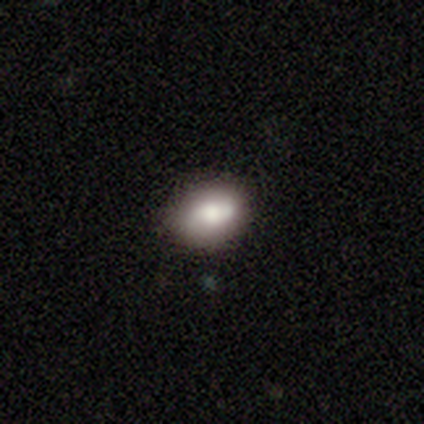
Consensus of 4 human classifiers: Smooth or featured? smooth (100%)
How rounded? in between (75%)
Merging? none (100%)